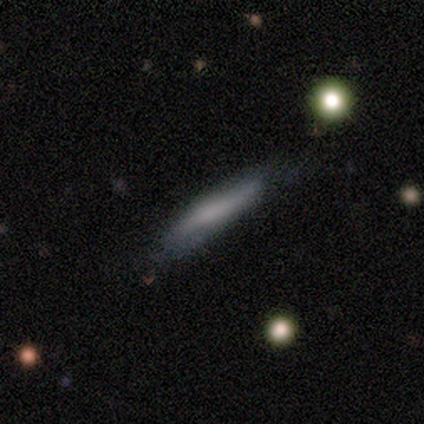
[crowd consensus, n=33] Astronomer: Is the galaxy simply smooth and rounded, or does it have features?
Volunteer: smooth — 58% (runner-up: featured or disk, 33%).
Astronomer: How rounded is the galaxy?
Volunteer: cigar-shaped — 95%.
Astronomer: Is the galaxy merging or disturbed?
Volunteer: none — 60%.